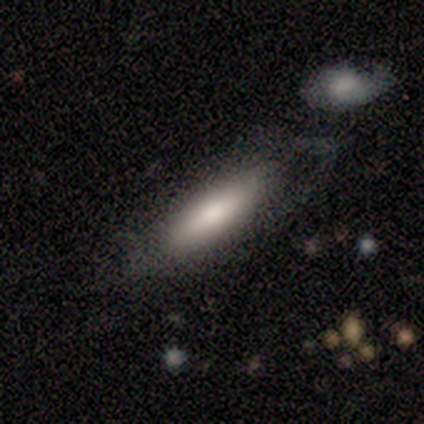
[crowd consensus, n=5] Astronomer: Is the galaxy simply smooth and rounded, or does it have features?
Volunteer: smooth — 80%.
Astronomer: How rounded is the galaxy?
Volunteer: cigar-shaped — 100%.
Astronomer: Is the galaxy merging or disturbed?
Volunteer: none — 80%.